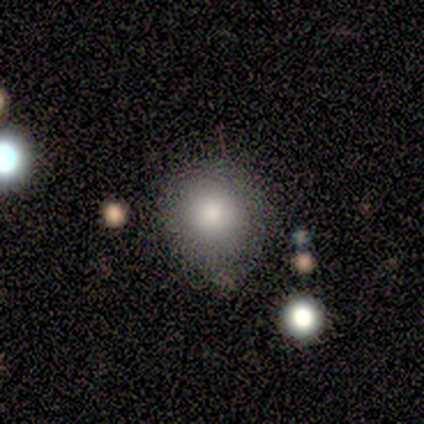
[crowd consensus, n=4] Q: Smooth or featured?
A: smooth (75%); runner-up: star or artifact (25%)
Q: How rounded?
A: round (100%)
Q: Merging?
A: none (100%)